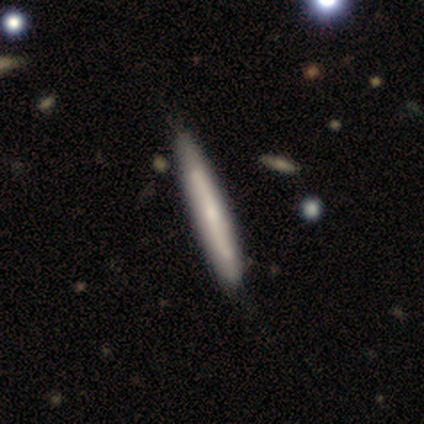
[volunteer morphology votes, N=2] This is possibly a smooth galaxy (50%, tied with featured or disk). How rounded: clearly cigar-shaped (100%). Merging: clearly none (100%).